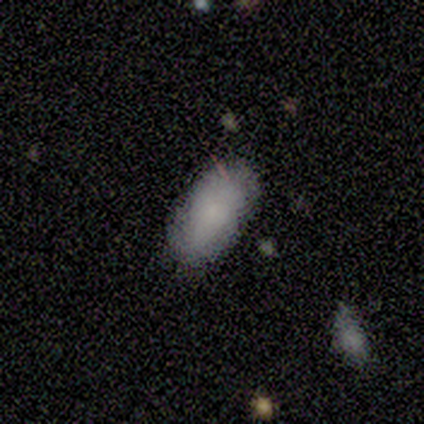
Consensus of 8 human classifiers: Smooth or featured? 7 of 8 (88%) said smooth. How rounded? 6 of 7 (86%) said in between. Merging? 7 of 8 (88%) said none.